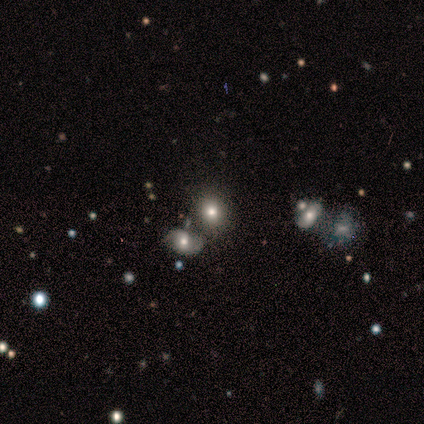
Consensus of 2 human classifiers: Smooth or featured: featured or disk — 100%
Edge-on disk: no — 100%
Bar: no — 100%
Spiral arms: no — 100%
Bulge size: large — 100%
Merging: none — 100%